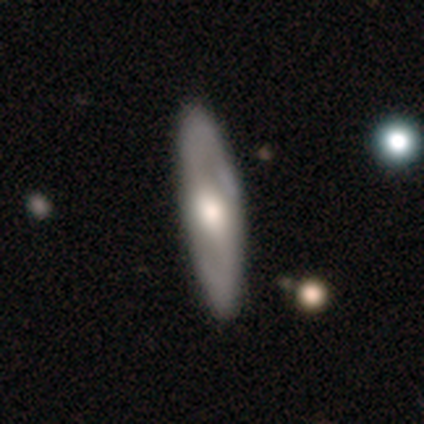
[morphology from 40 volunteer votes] Smooth or featured?
  - featured or disk: 70% *
  - smooth: 28%
  - star or artifact: 2%
Edge-on disk?
  - no: 71% *
  - yes: 29%
Bar?
  - no: 40% *
  - strong: 30%
  - weak: 30%
Spiral arms?
  - yes: 80% *
  - no: 20%
Spiral winding?
  - loose: 62% *
  - tight: 19%
  - medium: 19%
Spiral arm count?
  - 2: 81% *
  - can't tell: 19%
  - 1: 0%
  - 3: 0%
  - 4: 0%
  - more than 4: 0%
Bulge size?
  - large: 55% *
  - moderate: 35%
  - small: 10%
  - dominant: 0%
  - none: 0%
Merging?
  - none: 85% *
  - minor disturbance: 10%
  - major disturbance: 5%
  - merger: 0%